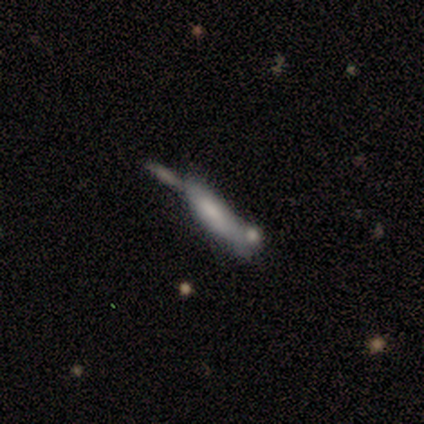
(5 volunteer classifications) A featured or disk galaxy (60%) with no bar (100%), no spiral arms (100%) and a large central bulge (50%, tied with small). Merging: minor disturbance (40%).